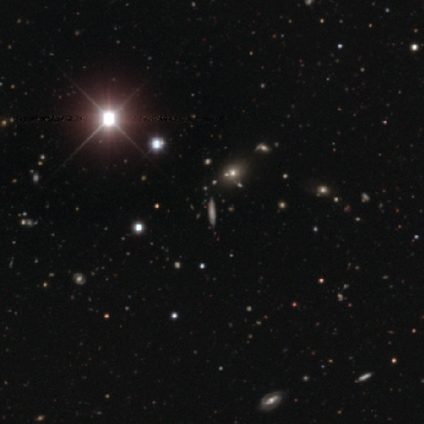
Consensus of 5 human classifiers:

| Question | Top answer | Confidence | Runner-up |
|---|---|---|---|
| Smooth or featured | smooth | 60% | featured or disk (20%) |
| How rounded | cigar-shaped | 100% | — |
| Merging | none | 100% | — |